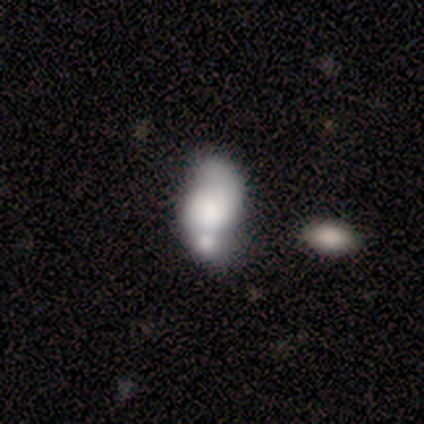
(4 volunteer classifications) Smooth or featured?
  - smooth: 50% *
  - featured or disk: 25%
  - star or artifact: 25%
How rounded?
  - round: 50% * (tied)
  - in between: 50% * (tied)
  - cigar-shaped: 0%
Merging?
  - none: 67% *
  - minor disturbance: 33%
  - major disturbance: 0%
  - merger: 0%